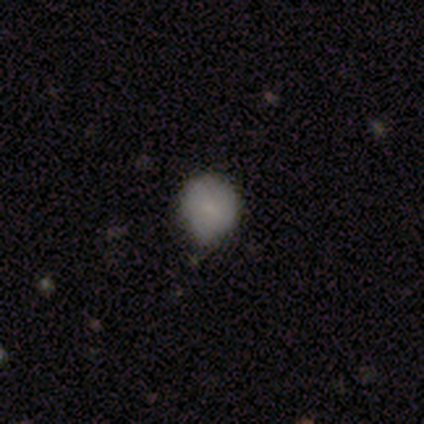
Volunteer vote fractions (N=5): Smooth or featured? smooth (60%)
How rounded? round (100%)
Merging? none (60%)